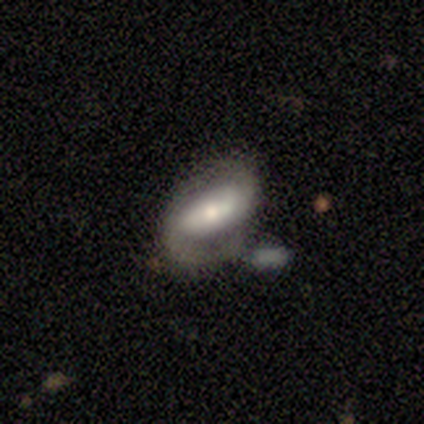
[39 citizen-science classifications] Q: Smooth or featured?
A: featured or disk (85%); runner-up: smooth (13%)
Q: Edge-on disk?
A: no (91%); runner-up: yes (9%)
Q: Bar?
A: strong (50%); runner-up: weak (27%)
Q: Spiral arms?
A: yes (93%); runner-up: no (7%)
Q: Spiral winding?
A: medium (46%); runner-up: tight (39%)
Q: Spiral arm count?
A: 2 (75%); runner-up: 1 (18%)
Q: Bulge size?
A: moderate (63%); runner-up: large (20%)
Q: Merging?
A: none (26%); runner-up: merger (18%)